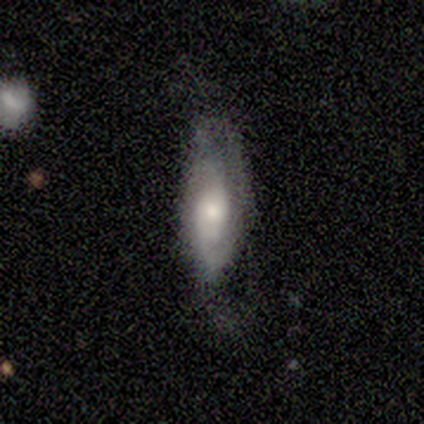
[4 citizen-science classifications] Overall: featured or disk (75%). Edge-on disk: no (100%). Bar: no (100%). Spiral arms: yes (100%). Spiral arm count: 2 (67%; can't tell 33%). Spiral winding: medium (67%; tight 33%). Bulge size: moderate (67%; small 33%). Merging: none (50%, tied with minor disturbance).